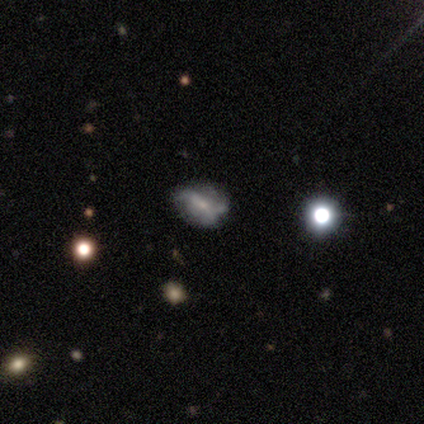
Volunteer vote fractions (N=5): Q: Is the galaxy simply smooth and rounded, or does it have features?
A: smooth — 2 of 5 (40%, tied with featured or disk).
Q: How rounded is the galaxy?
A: in between — 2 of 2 (100%).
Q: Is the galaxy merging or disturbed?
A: none — 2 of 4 (50%, tied with minor disturbance).